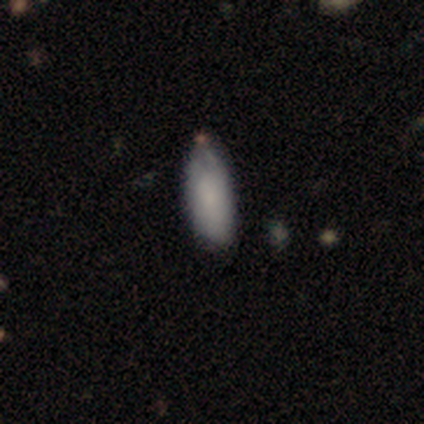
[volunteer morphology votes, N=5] type=smooth (60%); roundness=in between (100%); merging=none (60%).